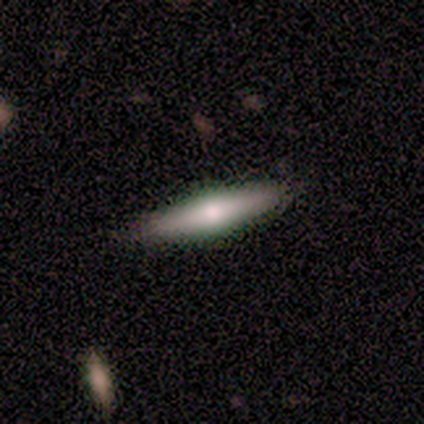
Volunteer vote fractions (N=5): featured or disk 60%, smooth 40%, star or artifact 0%. Down the decision tree: edge-on disk — yes (100%); edge-on bulge — rounded (100%); merging — none (100%).